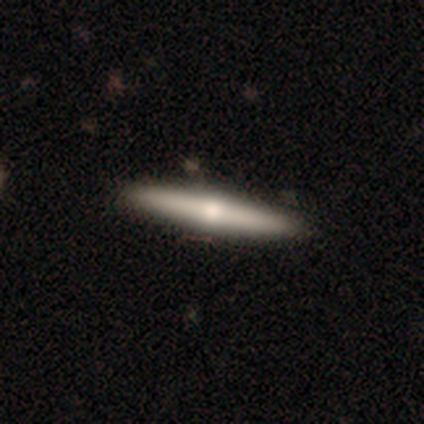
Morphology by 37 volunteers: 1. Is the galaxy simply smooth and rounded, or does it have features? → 54% featured or disk, 41% smooth, 5% star or artifact.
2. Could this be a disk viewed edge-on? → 95% yes, 5% no.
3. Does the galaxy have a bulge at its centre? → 74% rounded, 21% none, 5% boxy.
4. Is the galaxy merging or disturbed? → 97% none, 3% major disturbance, 0% minor disturbance, 0% merger.